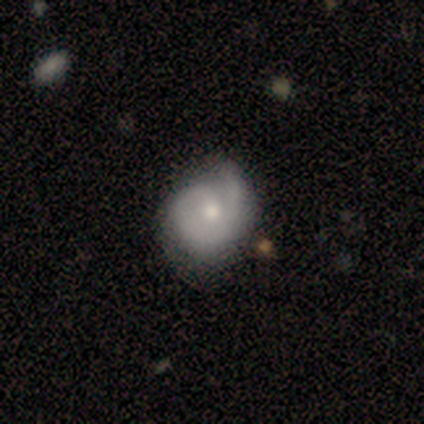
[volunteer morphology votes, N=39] Smooth or featured?
  - featured or disk: 74% *
  - smooth: 18%
  - star or artifact: 8%
Edge-on disk?
  - no: 100% *
  - yes: 0%
Bar?
  - no: 79% *
  - weak: 21%
  - strong: 0%
Spiral arms?
  - yes: 86% *
  - no: 14%
Spiral winding?
  - tight: 64% *
  - medium: 24%
  - loose: 12%
Spiral arm count?
  - 1: 52% *
  - 2: 32%
  - can't tell: 16%
  - 3: 0%
  - 4: 0%
  - more than 4: 0%
Bulge size?
  - moderate: 48% *
  - small: 38%
  - large: 14%
  - dominant: 0%
  - none: 0%
Merging?
  - none: 36% *
  - minor disturbance: 33%
  - major disturbance: 8%
  - merger: 3%